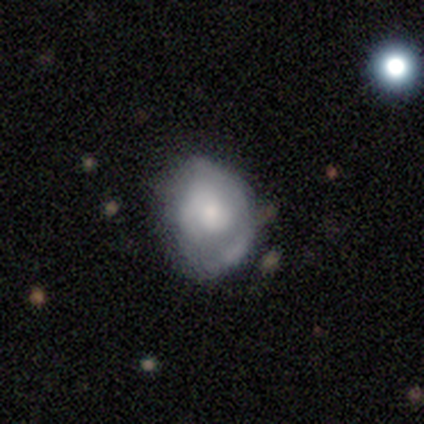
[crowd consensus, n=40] smooth-or-featured: smooth: 45% | featured or disk: 42% | star or artifact: 12%
  how-rounded: round: 61% | in between: 33% | cigar-shaped: 6%
  merging: none: 69% | minor disturbance: 11% | merger: 11% | major disturbance: 9%